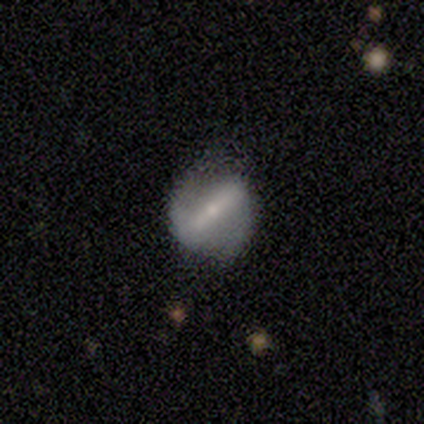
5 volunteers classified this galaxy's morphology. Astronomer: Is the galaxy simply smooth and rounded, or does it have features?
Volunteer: featured or disk — 60%.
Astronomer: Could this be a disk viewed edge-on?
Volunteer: no — 67%.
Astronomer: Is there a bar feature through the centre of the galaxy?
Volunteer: strong — 100%.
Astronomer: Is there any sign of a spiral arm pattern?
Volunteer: yes — 50%, tied with no at 50%.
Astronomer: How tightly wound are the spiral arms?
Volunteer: loose — 100%.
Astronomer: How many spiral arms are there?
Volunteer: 2 — 100%.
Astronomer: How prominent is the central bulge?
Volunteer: moderate — 50%, tied with small at 50%.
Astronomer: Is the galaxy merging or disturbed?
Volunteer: none — 75%.